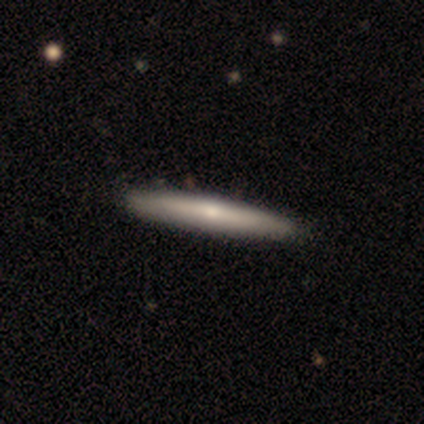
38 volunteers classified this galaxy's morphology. A smooth galaxy with no disk features (55%) that is cigar-shaped (95%).

Vote fractions:
- Smooth or featured? smooth: 55% / featured or disk: 45% / star or artifact: 0%
- How rounded? cigar-shaped: 95% / round: 5% / in between: 0%
- Merging? none: 63% / minor disturbance: 3% / major disturbance: 0% / merger: 0%